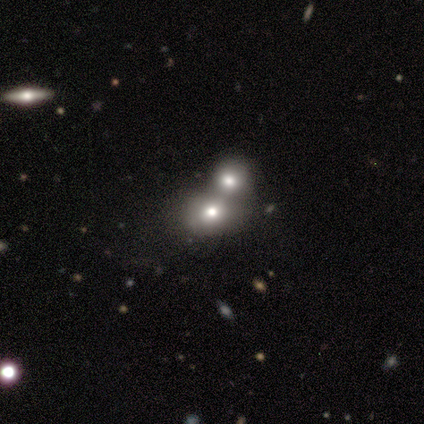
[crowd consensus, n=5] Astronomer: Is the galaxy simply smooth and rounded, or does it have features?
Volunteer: smooth — 40%, tied with featured or disk at 40%.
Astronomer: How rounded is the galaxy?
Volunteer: round — 50%, tied with in between at 50%.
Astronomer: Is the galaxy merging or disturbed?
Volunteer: merger — 50%.